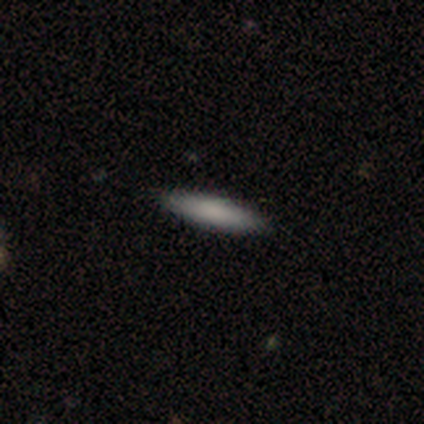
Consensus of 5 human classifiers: smooth 40% (tied), star or artifact 40% (tied), featured or disk 20%. Down the decision tree: how rounded — in between (50%, tied with cigar-shaped); merging — none (67%).